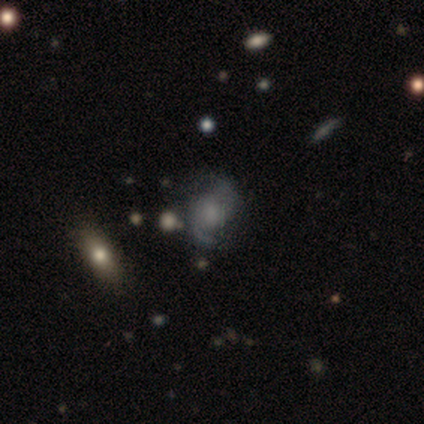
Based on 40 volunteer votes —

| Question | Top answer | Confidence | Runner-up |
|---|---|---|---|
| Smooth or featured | featured or disk | 72% | smooth (18%) |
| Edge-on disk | no | 100% | — |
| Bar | no | 83% | weak (17%) |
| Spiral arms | yes | 93% | no (7%) |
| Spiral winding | medium | 41% | tied: loose (41%) |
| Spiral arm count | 2 | 81% | can't tell (19%) |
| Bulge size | small | 45% | none (38%) |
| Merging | none | 58% | minor disturbance (28%) |